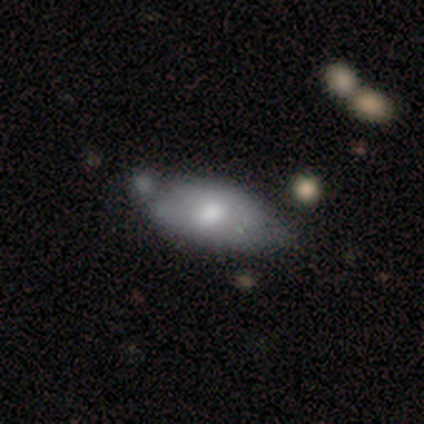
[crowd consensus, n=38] Smooth or featured? smooth (68%)
How rounded? in between (96%)
Merging? minor disturbance (42%)